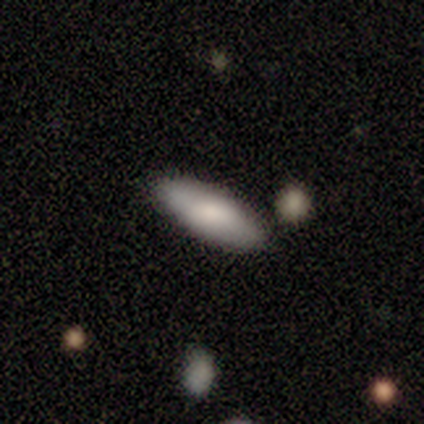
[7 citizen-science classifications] smooth 71%, featured or disk 29%, star or artifact 0%. Down the decision tree: how rounded — cigar-shaped (60%); merging — none (86%).